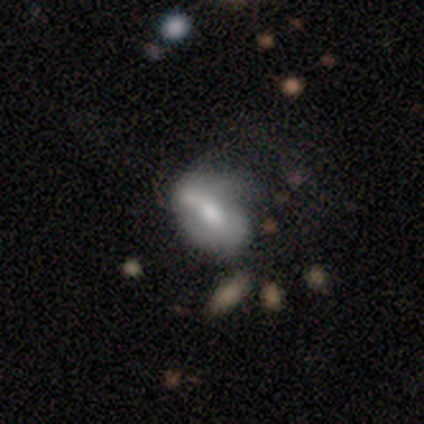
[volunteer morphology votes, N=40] Smooth or featured: featured or disk — 55% (smooth — 40%)
Edge-on disk: no — 95% (yes — 5%)
Bar: weak — 52% (no — 33%)
Spiral arms: no — 52% (yes — 48%)
Bulge size: moderate — 52% (large — 19%)
Merging: minor disturbance — 18% (none — 16%)